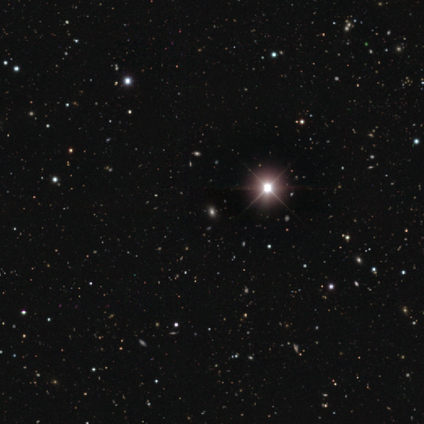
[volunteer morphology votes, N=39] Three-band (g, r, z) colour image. It shows a star or artifact, not a galaxy (85%).